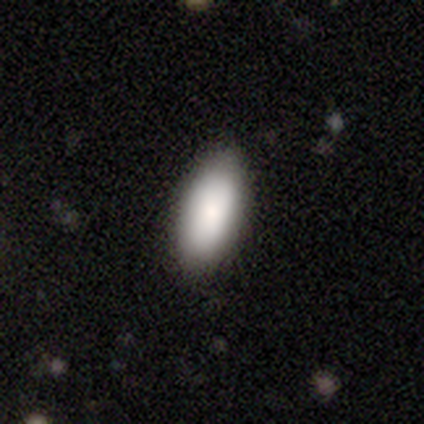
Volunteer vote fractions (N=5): Volunteers were most divided on "merging": none: 80%, merger: 20%, minor disturbance: 0%, major disturbance: 0%. More confident: smooth or featured — smooth (100%); how rounded — in between (100%).